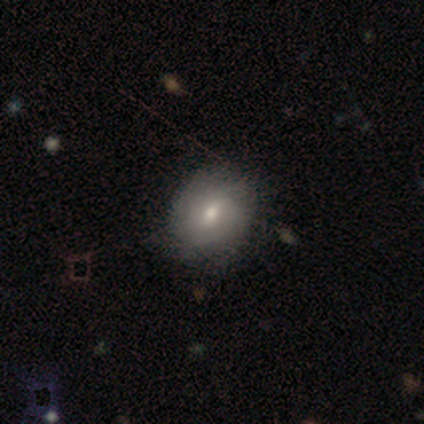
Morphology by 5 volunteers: Smooth or featured?
  - smooth: 60% *
  - featured or disk: 40%
  - star or artifact: 0%
How rounded?
  - round: 100% *
  - in between: 0%
  - cigar-shaped: 0%
Merging?
  - none: 100% *
  - minor disturbance: 0%
  - major disturbance: 0%
  - merger: 0%